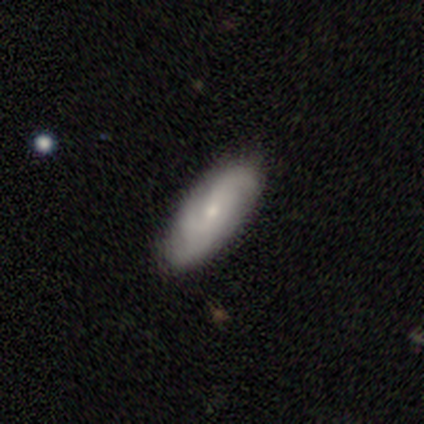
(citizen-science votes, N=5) Smooth or featured: featured or disk — 60% (smooth — 40%)
Edge-on disk: yes — 67% (no — 33%)
Edge-on bulge: rounded — 100%
Merging: none — 100%